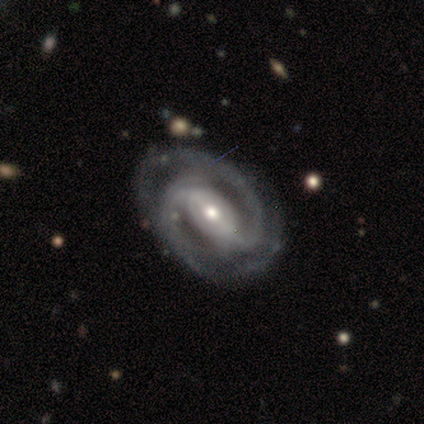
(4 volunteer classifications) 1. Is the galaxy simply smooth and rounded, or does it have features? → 75% featured or disk, 25% star or artifact, 0% smooth.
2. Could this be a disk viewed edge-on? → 100% no, 0% yes.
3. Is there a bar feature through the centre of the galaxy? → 67% weak, 33% strong, 0% no.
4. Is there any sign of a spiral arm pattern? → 100% yes, 0% no.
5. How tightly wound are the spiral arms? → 67% tight, 33% medium, 0% loose.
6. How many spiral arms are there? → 100% 2, 0% 1, 0% 3, 0% 4, 0% more than 4, 0% can't tell.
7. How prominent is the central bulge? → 100% small, 0% dominant, 0% large, 0% moderate, 0% none.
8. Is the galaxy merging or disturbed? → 67% none, 33% major disturbance, 0% minor disturbance, 0% merger.